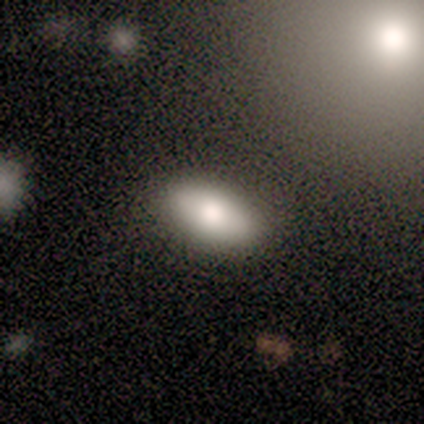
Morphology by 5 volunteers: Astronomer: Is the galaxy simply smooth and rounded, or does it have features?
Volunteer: smooth — 100%.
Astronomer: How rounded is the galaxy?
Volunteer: in between — 80%.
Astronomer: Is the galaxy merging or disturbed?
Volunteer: none — 60% (runner-up: major disturbance, 40%).